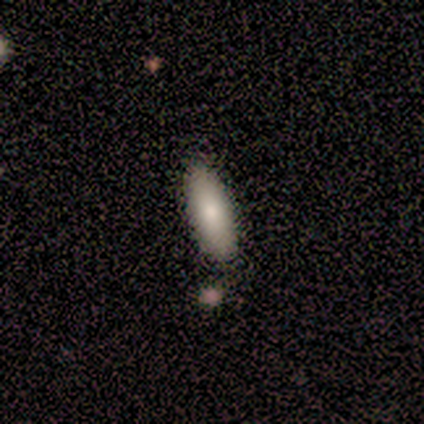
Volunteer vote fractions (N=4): Volunteers were most divided on "smooth or featured": smooth: 75%, star or artifact: 25%, featured or disk: 0%. More confident: how rounded — in between (100%); merging — none (100%).